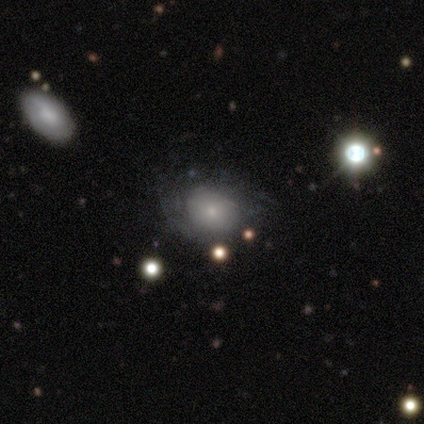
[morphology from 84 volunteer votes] Volunteers were most divided on "how rounded": round: 53%, in between: 47%, cigar-shaped: 0%. More confident: merging — none (59%); smooth or featured — smooth (58%).